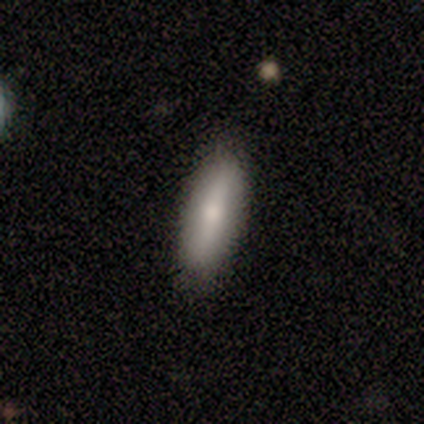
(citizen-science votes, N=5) Smooth or featured? smooth (80%)
How rounded? in between (75%)
Merging? none (80%)